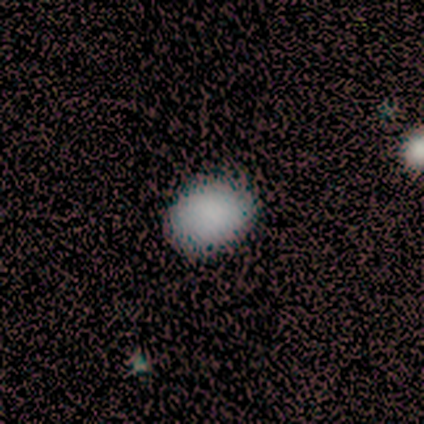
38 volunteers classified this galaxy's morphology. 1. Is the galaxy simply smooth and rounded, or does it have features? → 95% smooth, 5% star or artifact, 0% featured or disk.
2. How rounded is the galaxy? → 69% in between, 31% round, 0% cigar-shaped.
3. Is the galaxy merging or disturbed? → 69% none, 0% minor disturbance, 0% major disturbance, 0% merger.